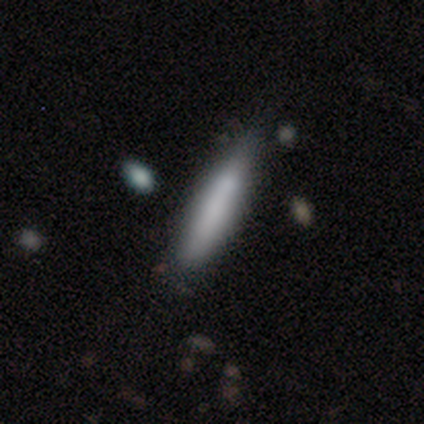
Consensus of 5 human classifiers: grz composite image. It shows a smooth galaxy with no disk features (80%) that is cigar-shaped (100%). Merging: none (100%).